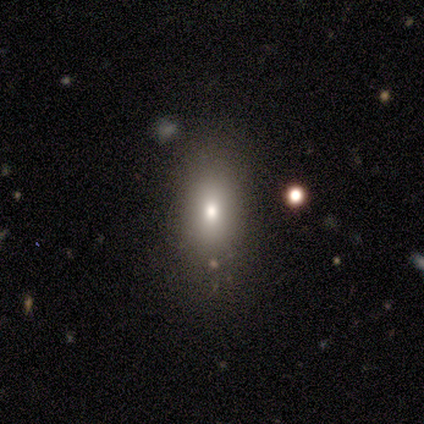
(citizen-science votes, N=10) This is likely a smooth galaxy (70%). How rounded: possibly in between (57%). Merging: clearly none (100%).